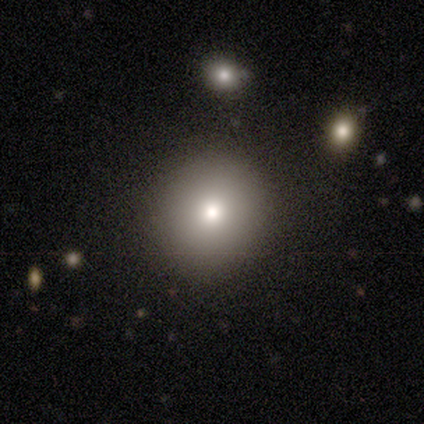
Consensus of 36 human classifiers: This is likely a smooth galaxy (61%). How rounded: clearly round (86%). Merging: clearly none (89%).